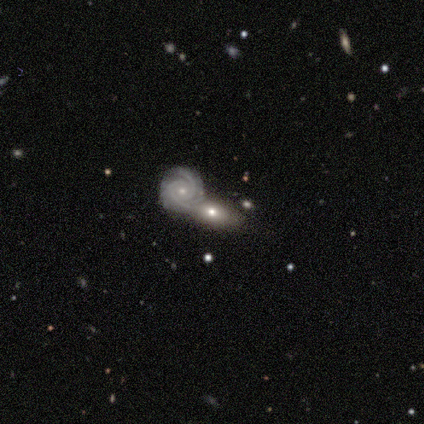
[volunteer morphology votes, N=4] smooth_or_featured: featured or disk (p=0.75) [alt: smooth p=0.25]
disk_edge_on: no (p=0.67) [alt: yes p=0.33]
bar: no (p=1.00)
has_spiral_arms: yes (p=1.00)
spiral_winding: tight (p=1.00)
spiral_arm_count: 2 (p=0.50) [tied with: 3 p=0.50]
bulge_size: small (p=0.50) [tied with: none p=0.50]
merging: none (p=0.25) [tied with: minor disturbance p=0.25, major disturbance p=0.25, merger p=0.25]